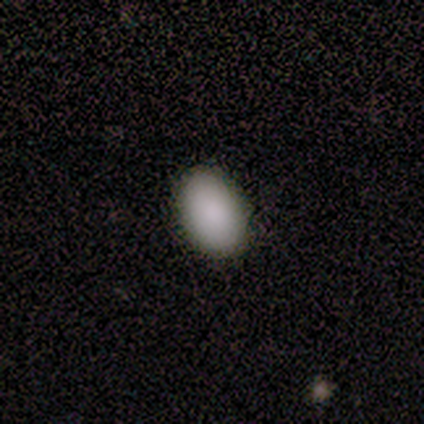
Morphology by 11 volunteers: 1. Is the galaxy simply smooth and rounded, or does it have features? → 82% smooth, 9% featured or disk, 9% star or artifact.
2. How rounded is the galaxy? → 78% in between, 22% round, 0% cigar-shaped.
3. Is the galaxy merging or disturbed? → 70% none, 20% minor disturbance, 10% merger, 0% major disturbance.